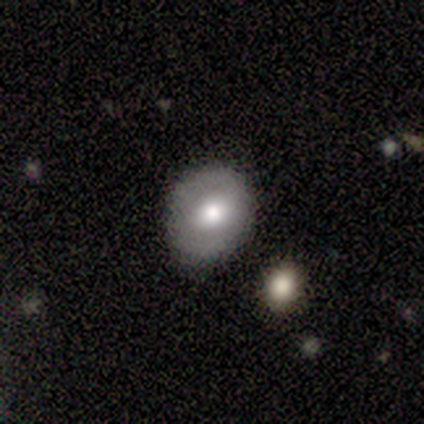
smooth 67%, featured or disk 33%, star or artifact 0%. Down the decision tree: how rounded — round (50%, tied with in between); merging — none (67%).